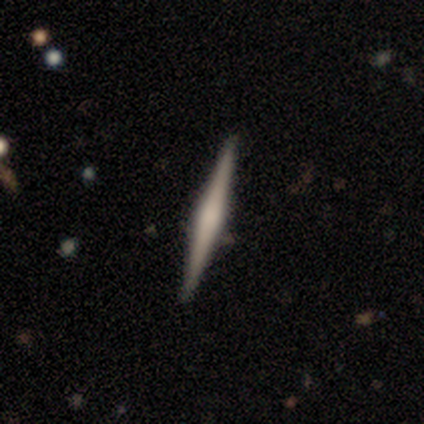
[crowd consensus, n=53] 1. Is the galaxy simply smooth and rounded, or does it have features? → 72% featured or disk, 23% smooth, 6% star or artifact.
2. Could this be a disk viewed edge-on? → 100% yes, 0% no.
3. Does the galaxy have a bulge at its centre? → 50% rounded, 29% boxy, 21% none.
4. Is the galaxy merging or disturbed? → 92% none, 6% minor disturbance, 2% merger, 0% major disturbance.